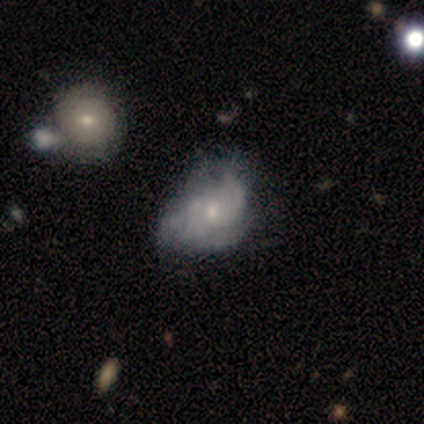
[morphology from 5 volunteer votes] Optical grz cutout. It shows a featured or disk galaxy (60%) with no bar (100%), 2 (33%, tied with 3 and can't tell) tight (67%) spiral arms (100%) and a small central bulge (100%). Merging: major disturbance (67%).